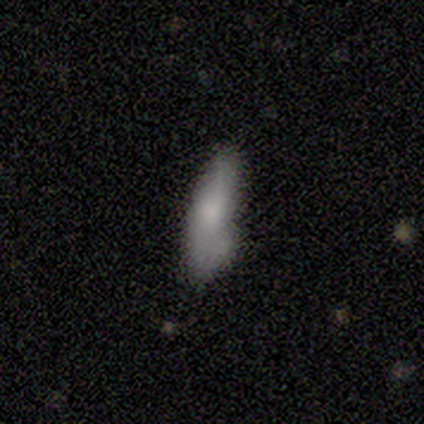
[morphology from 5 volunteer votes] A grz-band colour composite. It shows a smooth galaxy with no disk features (80%) that is cigar-shaped (75%). Merging: none (40%, tied with major disturbance).